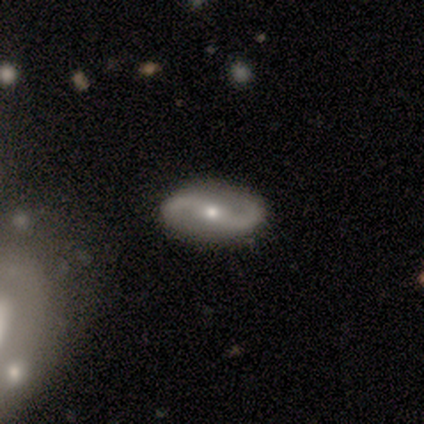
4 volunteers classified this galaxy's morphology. Q: Smooth or featured?
A: featured or disk (100%)
Q: Edge-on disk?
A: no (100%)
Q: Bar?
A: strong (50%); tied with: no (50%)
Q: Spiral arms?
A: yes (100%)
Q: Spiral winding?
A: loose (75%); runner-up: medium (25%)
Q: Spiral arm count?
A: 2 (100%)
Q: Bulge size?
A: small (75%); runner-up: moderate (25%)
Q: Merging?
A: none (100%)